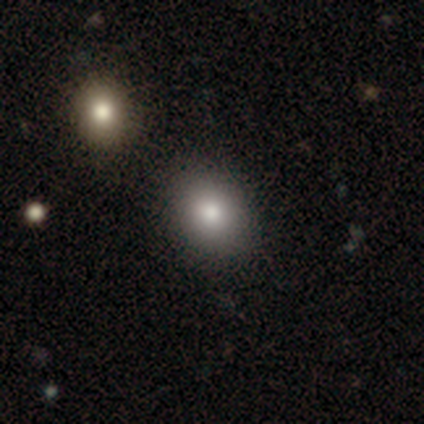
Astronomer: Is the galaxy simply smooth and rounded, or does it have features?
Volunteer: smooth — 85%.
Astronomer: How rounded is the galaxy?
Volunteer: in between — 53% (runner-up: round, 47%).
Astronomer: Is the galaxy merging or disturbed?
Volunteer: none — 62%.